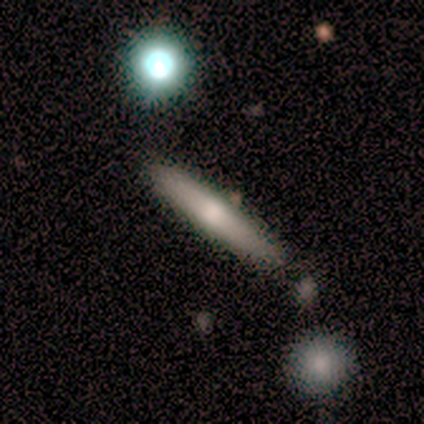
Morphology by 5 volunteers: Smooth or featured? 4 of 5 (80%) said smooth. How rounded? 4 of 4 (100%) said cigar-shaped. Merging? 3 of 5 (60%) said none.